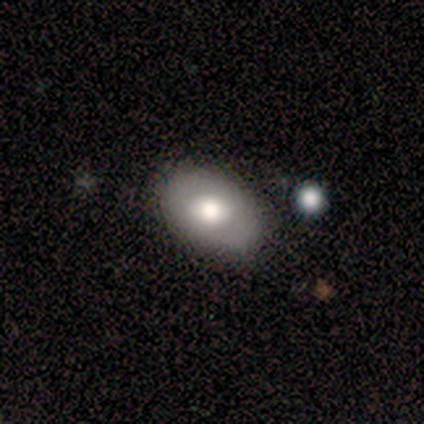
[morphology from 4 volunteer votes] smooth 50% (tied), featured or disk 50% (tied), star or artifact 0%. Down the decision tree: how rounded — in between (100%); merging — none (100%).